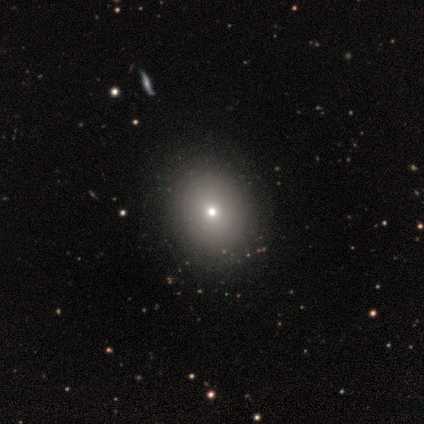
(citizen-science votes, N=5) Q: Smooth or featured?
A: smooth (100%)
Q: How rounded?
A: round (60%); runner-up: in between (40%)
Q: Merging?
A: none (100%)